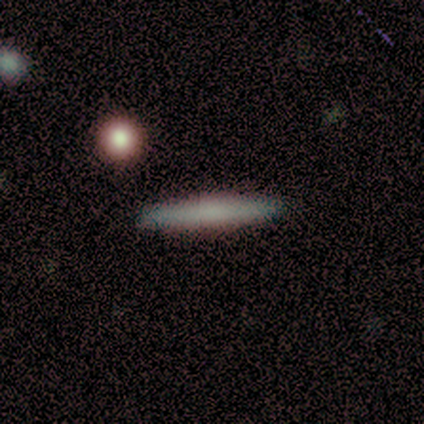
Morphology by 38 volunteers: This appears to be a smooth galaxy with no disk features (63%) that is cigar-shaped (96%). Merging: none (91%).